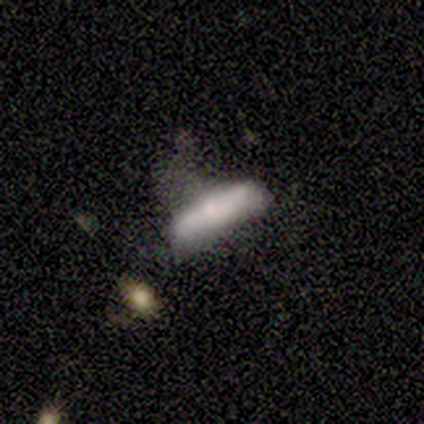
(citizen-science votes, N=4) Smooth or featured? featured or disk (50%)
Edge-on disk? yes (50%, tied with no)
Edge-on bulge? rounded (100%)
Merging? minor disturbance (33%, tied with major disturbance and merger)